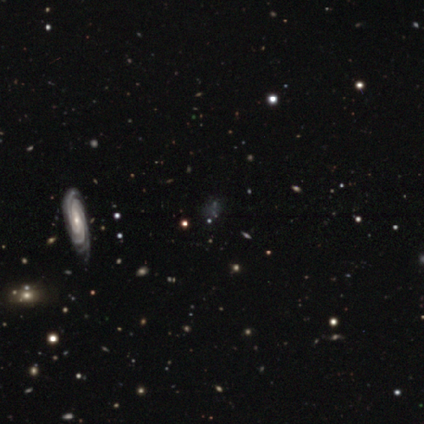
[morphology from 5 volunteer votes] smooth_or_featured: featured or disk (p=0.80) [alt: star or artifact p=0.20]
disk_edge_on: no (p=0.75) [alt: yes p=0.25]
bar: weak (p=0.67) [alt: strong p=0.33]
has_spiral_arms: yes (p=1.00)
spiral_winding: tight (p=1.00)
spiral_arm_count: 3 (p=0.33) [tied with: 4 p=0.33, can't tell p=0.33]
bulge_size: moderate (p=0.67) [alt: small p=0.33]
merging: none (p=0.75) [alt: minor disturbance p=0.25]